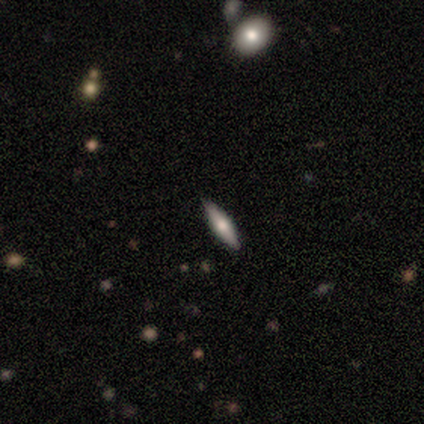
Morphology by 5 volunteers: smooth 80%, featured or disk 20%, star or artifact 0%. Down the decision tree: how rounded — in between (75%); merging — none (100%).